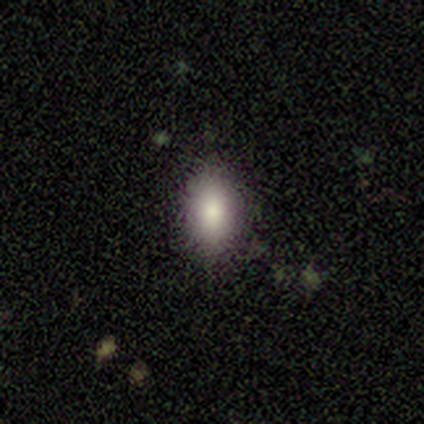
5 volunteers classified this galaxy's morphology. Overall: smooth (80%). How rounded: in between (100%). Merging: none (60%; minor disturbance 20%).